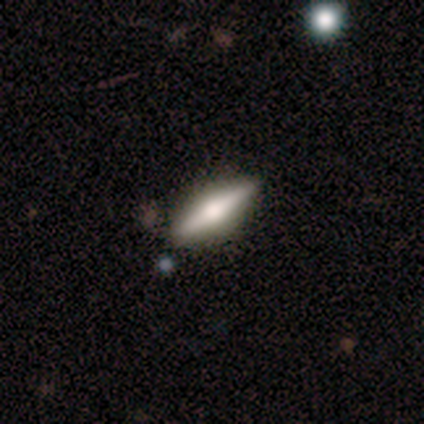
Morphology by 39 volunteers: smooth-or-featured: featured or disk: 69% | smooth: 31% | star or artifact: 0%
  disk-edge-on: yes: 100% | no: 0%
    edge-on-bulge: rounded: 93% | boxy: 7% | none: 0%
  merging: none: 74% | minor disturbance: 3% | merger: 3% | major disturbance: 0%